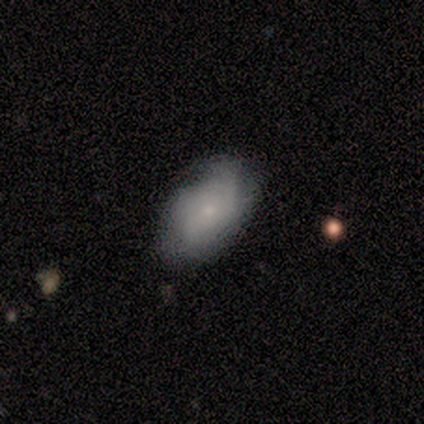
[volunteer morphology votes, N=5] Smooth or featured? 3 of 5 (60%) said smooth. How rounded? 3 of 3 (100%) said in between. Merging? 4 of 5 (80%) said none.